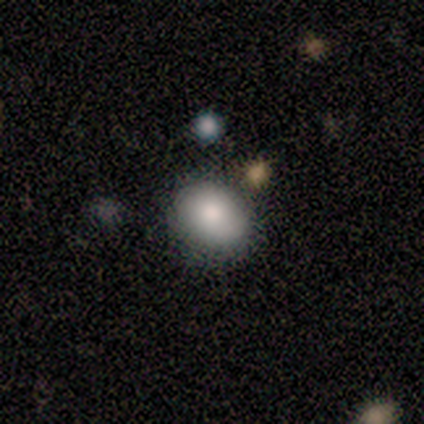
Smooth or featured? smooth (100%)
How rounded? round (50%, tied with in between)
Merging? none (50%, tied with minor disturbance)